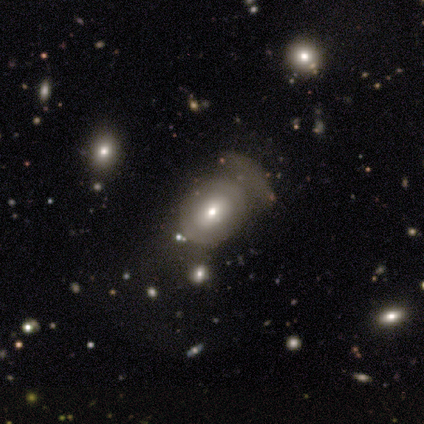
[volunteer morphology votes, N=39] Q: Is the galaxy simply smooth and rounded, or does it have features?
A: smooth — 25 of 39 (64%).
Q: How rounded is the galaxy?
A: in between — 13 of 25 (52%).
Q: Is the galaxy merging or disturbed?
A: none — 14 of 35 (40%).